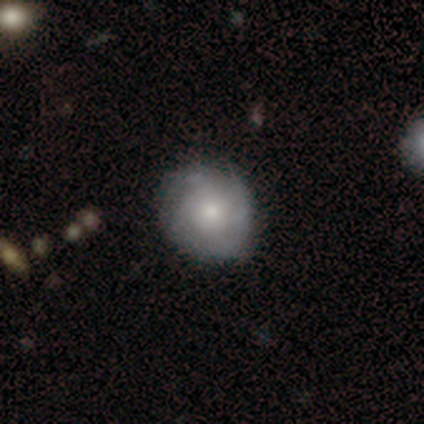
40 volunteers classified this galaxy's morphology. smooth-or-featured: featured or disk: 65% | smooth: 35% | star or artifact: 0%
  disk-edge-on: no: 100% | yes: 0%
    bar: no: 92% | weak: 8% | strong: 0%
    has-spiral-arms: yes: 85% | no: 15%
      spiral-winding: tight: 59% | loose: 23% | medium: 18%
      spiral-arm-count: can't tell: 73% | 4: 18% | 1: 9% | 2: 0% | 3: 0% | more than 4: 0%
    bulge-size: moderate: 38% | small: 35% | large: 15% | none: 12% | dominant: 0%
  merging: none: 57% | minor disturbance: 18% | major disturbance: 2% | merger: 2%